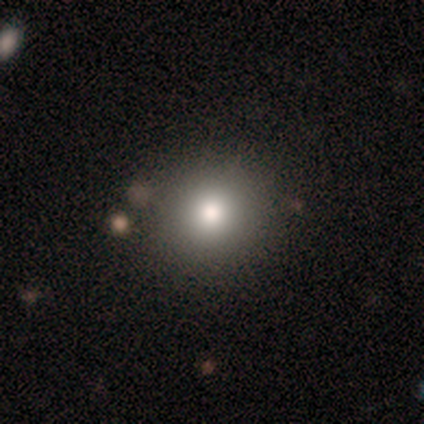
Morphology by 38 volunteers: type=smooth (74%); roundness=round (93%); merging=none (94%).